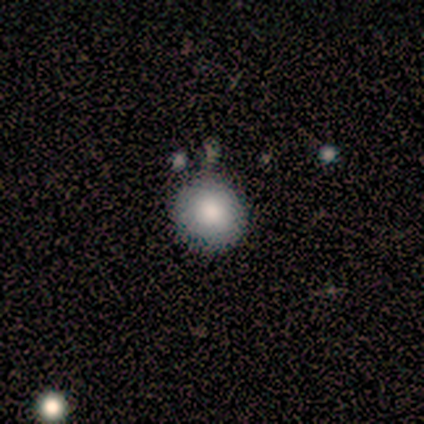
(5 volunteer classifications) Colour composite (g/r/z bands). It shows a smooth galaxy with no disk features (80%) that is round (100%). Merging: none (100%).